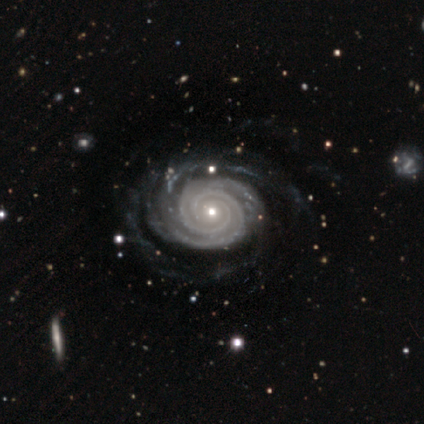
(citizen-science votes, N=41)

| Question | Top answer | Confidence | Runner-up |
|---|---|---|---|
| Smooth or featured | featured or disk | 95% | smooth (2%) |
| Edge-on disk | no | 97% | yes (3%) |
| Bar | no | 95% | weak (5%) |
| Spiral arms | yes | 100% | — |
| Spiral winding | tight | 89% | medium (8%) |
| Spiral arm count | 2 | 71% | 4 (16%) |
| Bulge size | small | 63% | moderate (32%) |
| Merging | none | 75% | minor disturbance (12%) |